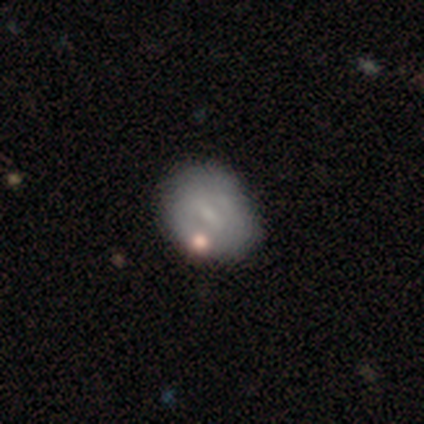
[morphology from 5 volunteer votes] Smooth or featured: star or artifact — 60% (smooth — 40%)